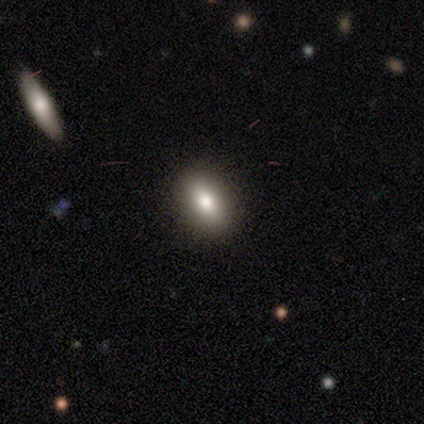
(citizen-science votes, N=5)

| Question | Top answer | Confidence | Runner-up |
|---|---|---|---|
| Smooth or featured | smooth | 80% | star or artifact (20%) |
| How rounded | in between | 100% | — |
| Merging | none | 100% | — |